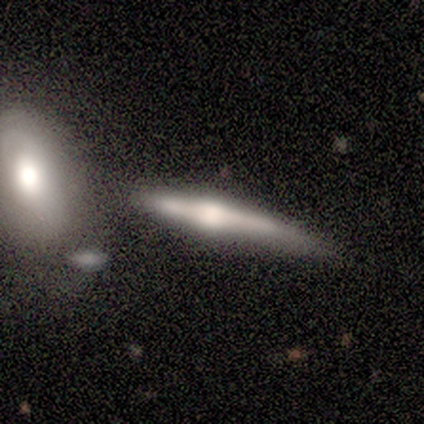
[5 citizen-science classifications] Morphology: type=featured or disk (60%); edge-on=yes (100%); edge-on bulge=rounded (100%); merging=minor disturbance (50%).